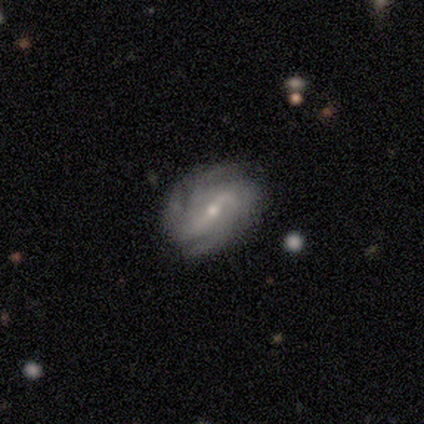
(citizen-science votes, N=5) A featured or disk galaxy (100%) with a weak bar (60%), 4 (80%) medium (80%) spiral arms (100%) and a small central bulge (60%).

Vote fractions:
- Smooth or featured? featured or disk: 100% / smooth: 0% / star or artifact: 0%
- Edge-on disk? no: 100% / yes: 0%
- Bar? weak: 60% / strong: 40% / no: 0%
- Spiral arms? yes: 100% / no: 0%
- Spiral winding? medium: 80% / tight: 20% / loose: 0%
- Spiral arm count? 4: 80% / 2: 20% / 1: 0% / 3: 0% / more than 4: 0% / can't tell: 0%
- Bulge size? small: 60% / moderate: 40% / dominant: 0% / large: 0% / none: 0%
- Merging? none: 60% / minor disturbance: 20% / merger: 20% / major disturbance: 0%